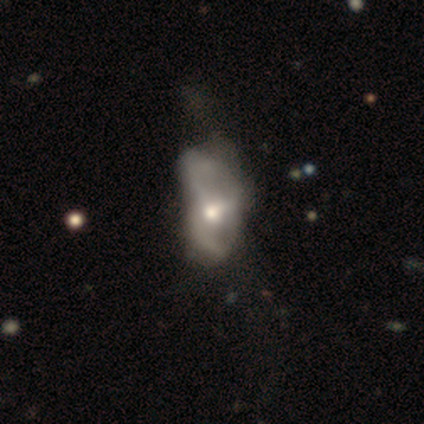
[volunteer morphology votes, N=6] smooth-or-featured: featured or disk: 100% | smooth: 0% | star or artifact: 0%
  disk-edge-on: no: 100% | yes: 0%
    bar: no: 100% | strong: 0% | weak: 0%
    has-spiral-arms: no: 100% | yes: 0%
    bulge-size: moderate: 67% | large: 33% | dominant: 0% | small: 0% | none: 0%
  merging: major disturbance: 67% | merger: 33% | none: 0% | minor disturbance: 0%